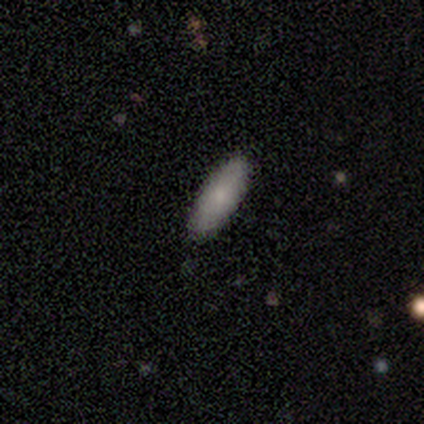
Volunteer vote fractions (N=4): smooth_or_featured: smooth (p=1.00)
how_rounded: in between (p=0.75) [alt: cigar-shaped p=0.25]
merging: none (p=0.75) [alt: minor disturbance p=0.25]